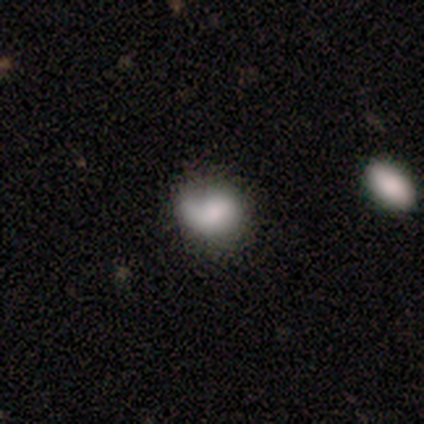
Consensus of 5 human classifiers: smooth-or-featured: smooth: 80% | featured or disk: 20% | star or artifact: 0%
  how-rounded: round: 75% | in between: 25% | cigar-shaped: 0%
  merging: none: 40% (tied) | minor disturbance: 40% (tied) | major disturbance: 20% | merger: 0%